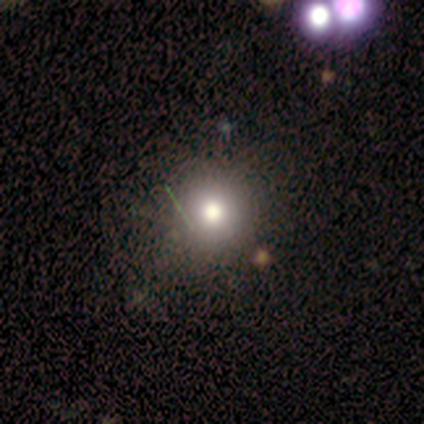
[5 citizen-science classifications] Overall: smooth (80%). How rounded: round (100%). Merging: none (80%).